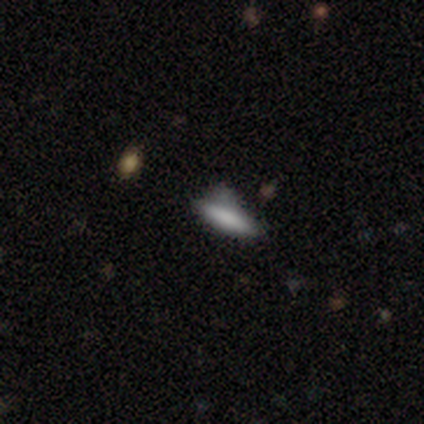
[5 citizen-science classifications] This is clearly a smooth galaxy (100%). How rounded: likely cigar-shaped (60%). Merging: likely major disturbance (60%).